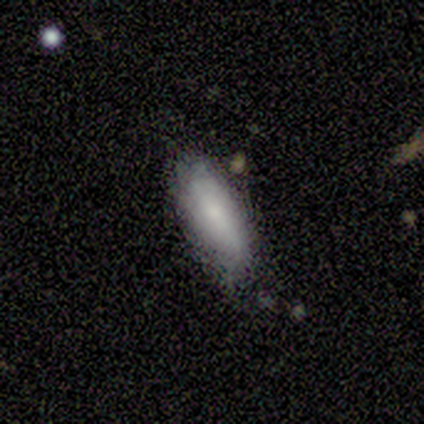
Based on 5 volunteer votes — Overall: smooth (100%). How rounded: in between (60%; cigar-shaped 40%). Merging: none (100%).